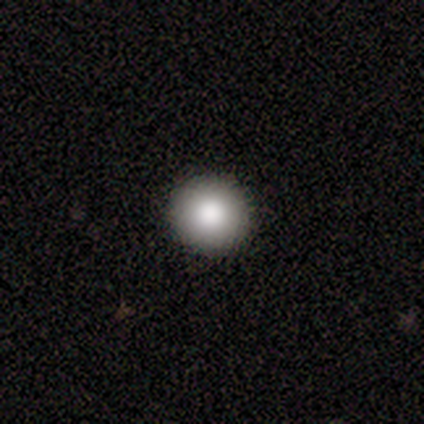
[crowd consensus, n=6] Q: Smooth or featured?
A: smooth (67%); runner-up: featured or disk (17%)
Q: How rounded?
A: round (100%)
Q: Merging?
A: none (100%)